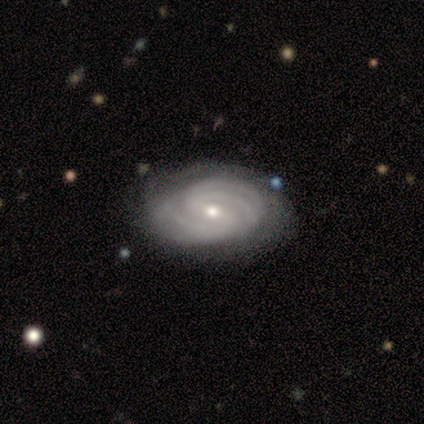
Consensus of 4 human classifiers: Smooth or featured? 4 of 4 (100%) said featured or disk. Edge-on disk? 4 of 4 (100%) said no. Bar? 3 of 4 (75%) said no. Spiral arms? 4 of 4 (100%) said yes. Spiral winding? 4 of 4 (100%) said tight. Spiral arm count? 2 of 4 (50%) said 3. Bulge size? 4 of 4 (100%) said small. Merging? 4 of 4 (100%) said none.